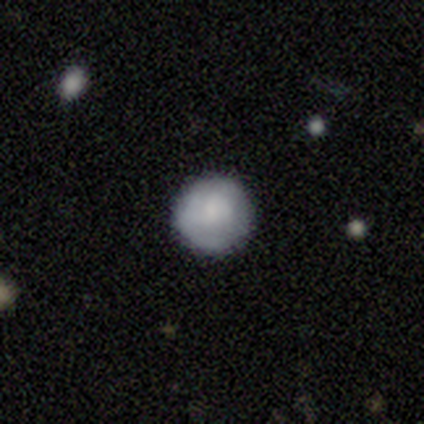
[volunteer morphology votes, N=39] A smooth galaxy with no disk features (69%) that is round (96%). Merging: none (89%).